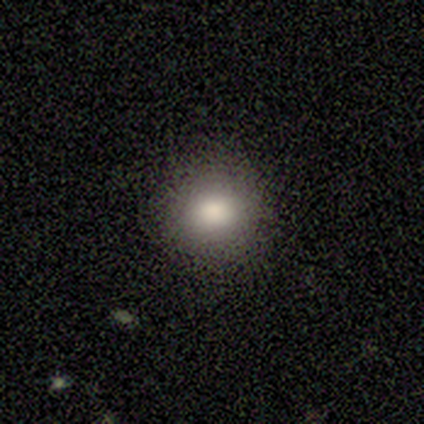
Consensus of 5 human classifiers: Smooth or featured? smooth (100%)
How rounded? round (100%)
Merging? none (100%)